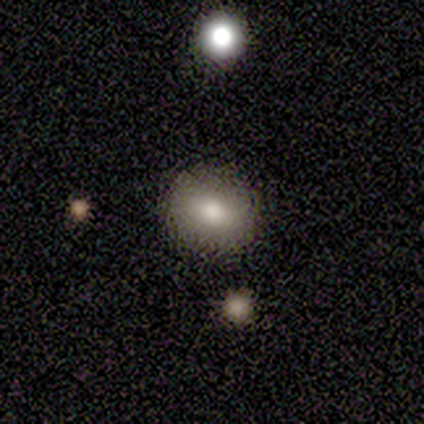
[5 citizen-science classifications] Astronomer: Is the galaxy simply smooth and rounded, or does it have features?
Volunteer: smooth — 100%.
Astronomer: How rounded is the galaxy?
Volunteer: round — 80%.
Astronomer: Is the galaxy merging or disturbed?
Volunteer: none — 80%.